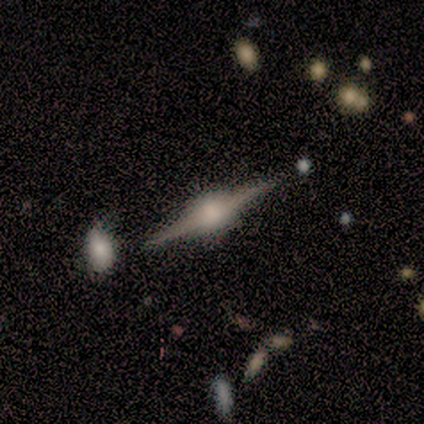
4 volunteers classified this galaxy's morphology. Smooth or featured?
  - featured or disk: 100% *
  - smooth: 0%
  - star or artifact: 0%
Edge-on disk?
  - yes: 100% *
  - no: 0%
Edge-on bulge?
  - rounded: 75% *
  - boxy: 25%
  - none: 0%
Merging?
  - none: 100% *
  - minor disturbance: 0%
  - major disturbance: 0%
  - merger: 0%